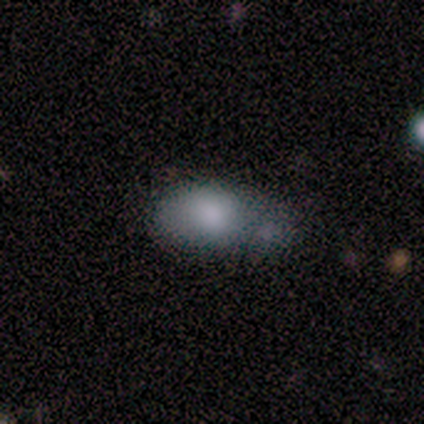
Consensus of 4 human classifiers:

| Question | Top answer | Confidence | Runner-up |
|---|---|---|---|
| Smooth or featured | smooth | 75% | featured or disk (25%) |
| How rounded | in between | 100% | — |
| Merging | major disturbance | 75% | merger (25%) |